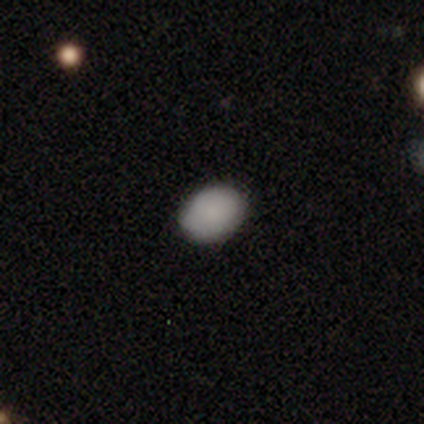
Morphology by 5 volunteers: This appears to be a smooth galaxy with no disk features (60%) that is in between round and cigar-shaped (67%). Merging: none (67%).